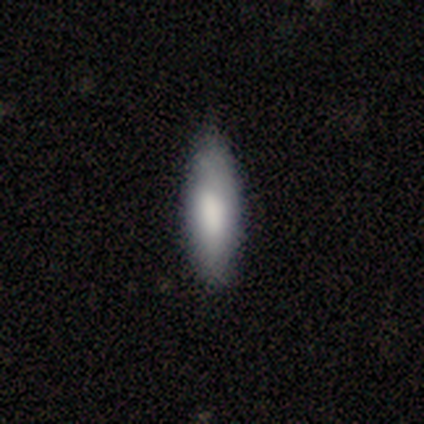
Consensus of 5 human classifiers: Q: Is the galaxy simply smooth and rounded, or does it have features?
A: smooth — 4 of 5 (80%).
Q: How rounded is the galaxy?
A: in between — 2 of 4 (50%, tied with cigar-shaped).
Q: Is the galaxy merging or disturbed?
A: none — 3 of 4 (75%).